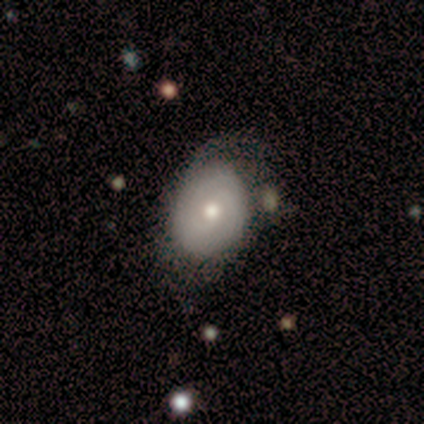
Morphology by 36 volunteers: Overall: featured or disk (61%; smooth 31%). Edge-on disk: no (95%). Bar: no (86%). Spiral arms: yes (81%). Spiral arm count: can't tell (47%; 2 29%). Spiral winding: tight (47%; medium 29%). Bulge size: moderate (71%). Merging: none (61%).